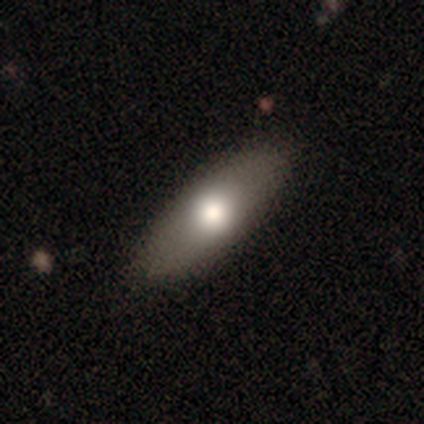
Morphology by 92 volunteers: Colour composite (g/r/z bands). It shows a smooth galaxy with no disk features (65%) that is in between round and cigar-shaped (77%). Merging: none (86%).